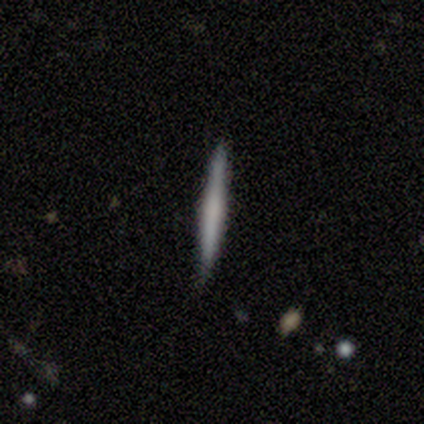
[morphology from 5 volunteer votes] A featured or disk galaxy (60%) viewed edge-on (100%) with no central bulge (67%). Merging: none (100%).